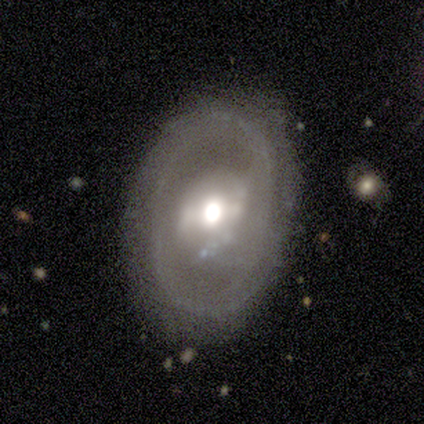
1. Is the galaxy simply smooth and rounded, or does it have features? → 75% featured or disk, 25% star or artifact, 0% smooth.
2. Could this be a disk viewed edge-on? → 100% no, 0% yes.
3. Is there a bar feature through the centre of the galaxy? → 67% weak, 33% strong, 0% no.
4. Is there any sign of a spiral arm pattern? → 100% yes, 0% no.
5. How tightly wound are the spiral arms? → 67% medium, 33% tight, 0% loose.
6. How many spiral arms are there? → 33% 2 (tied), 33% 3 (tied), 33% can't tell (tied), 0% 1, 0% 4, 0% more than 4.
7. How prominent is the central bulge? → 67% moderate, 33% small, 0% dominant, 0% large, 0% none.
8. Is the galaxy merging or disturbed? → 67% major disturbance, 33% none, 0% minor disturbance, 0% merger.